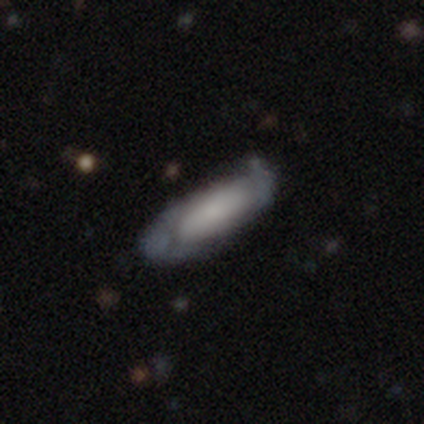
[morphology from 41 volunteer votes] A smooth galaxy with no disk features (56%) that is in between round and cigar-shaped (70%).

Vote fractions:
- Smooth or featured? smooth: 56% / featured or disk: 41% / star or artifact: 2%
- How rounded? in between: 70% / cigar-shaped: 30% / round: 0%
- Merging? minor disturbance: 52% / none: 40% / major disturbance: 8% / merger: 0%